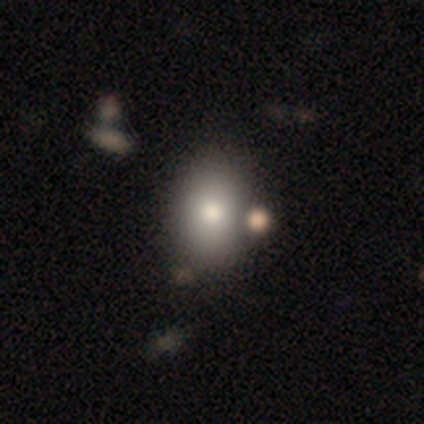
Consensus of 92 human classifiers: A smooth galaxy with no disk features (86%) that is in between round and cigar-shaped (65%). Merging: none (66%).